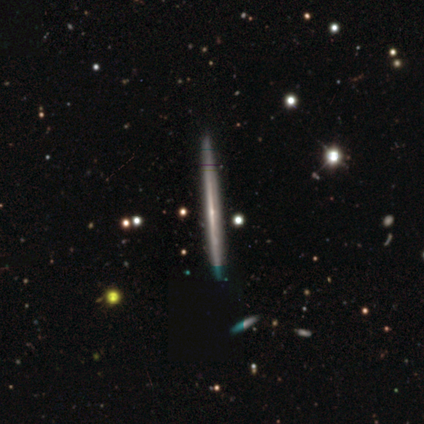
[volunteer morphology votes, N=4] smooth-or-featured: featured or disk: 100% | smooth: 0% | star or artifact: 0%
  disk-edge-on: yes: 100% | no: 0%
    edge-on-bulge: none: 75% | rounded: 25% | boxy: 0%
  merging: none: 100% | minor disturbance: 0% | major disturbance: 0% | merger: 0%